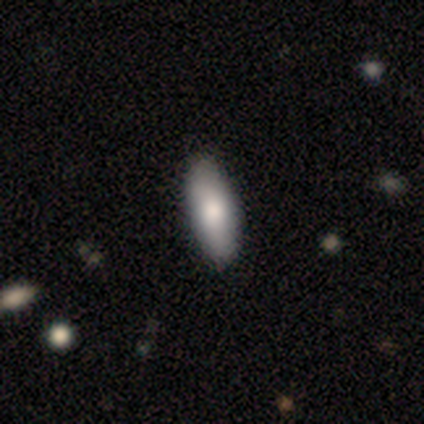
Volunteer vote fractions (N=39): Smooth or featured? 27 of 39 (69%) said smooth. How rounded? 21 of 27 (78%) said in between. Merging? 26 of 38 (68%) said none.